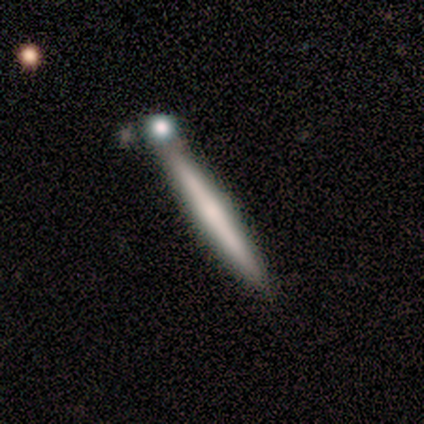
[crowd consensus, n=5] smooth_or_featured: featured or disk (p=1.00)
disk_edge_on: yes (p=0.80) [alt: no p=0.20]
edge_on_bulge: rounded (p=1.00)
merging: none (p=0.80) [alt: merger p=0.20]